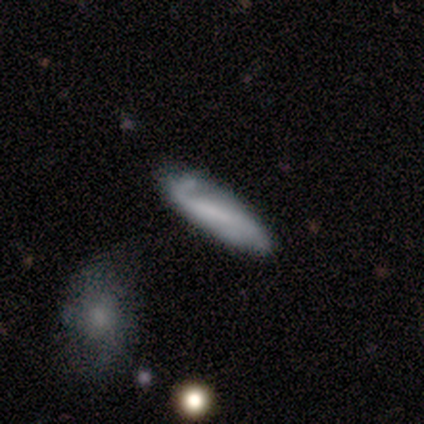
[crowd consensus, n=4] Volunteers were most divided on "how rounded": cigar-shaped: 75%, in between: 25%, round: 0%. More confident: smooth or featured — smooth (100%); merging — minor disturbance (75%).